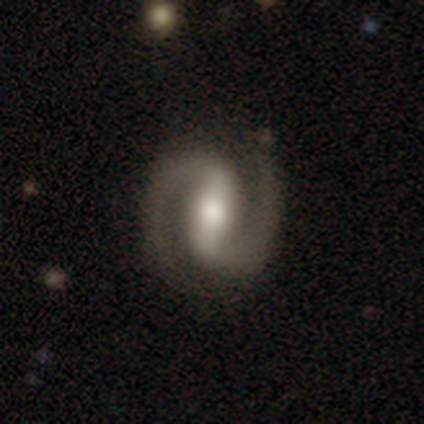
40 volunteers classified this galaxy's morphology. This is clearly a featured or disk galaxy (98%). It is clearly not viewed edge-on (100%). Bar: likely strong (69%). Spiral arm pattern: clearly yes (97%). Spiral arm count: clearly 2 (97%). Spiral winding: marginally tight (45%). Central bulge: likely moderate (74%). Merging: clearly none (95%).